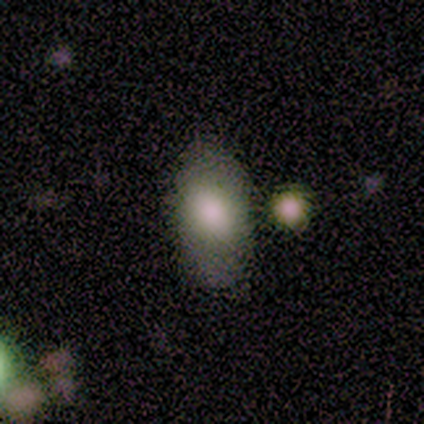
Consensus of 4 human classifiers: This appears to be a smooth galaxy with no disk features (100%) that is in between round and cigar-shaped (100%). Merging: none (50%).